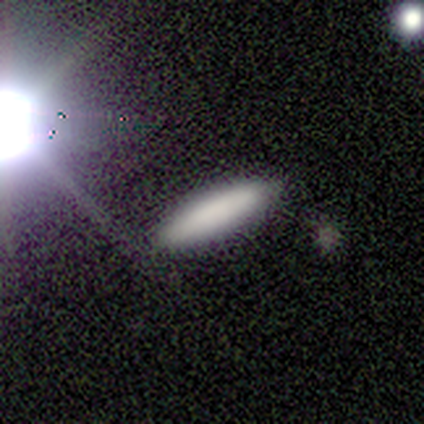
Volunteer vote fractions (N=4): A smooth galaxy with no disk features (100%) that is in between round and cigar-shaped (50%, tied with cigar-shaped).

Vote fractions:
- Smooth or featured? smooth: 100% / featured or disk: 0% / star or artifact: 0%
- How rounded? in between: 50% (tied) / cigar-shaped: 50% (tied) / round: 0%
- Merging? none: 100% / minor disturbance: 0% / major disturbance: 0% / merger: 0%